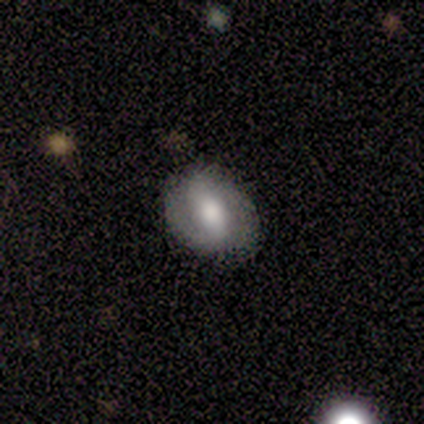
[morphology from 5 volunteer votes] Smooth or featured? 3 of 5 (60%) said smooth. How rounded? 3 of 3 (100%) said round. Merging? 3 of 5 (60%) said none.